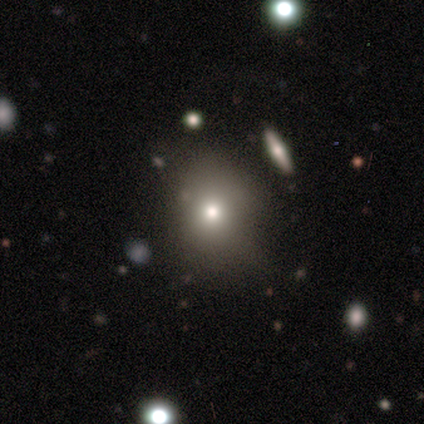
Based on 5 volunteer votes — This is likely a smooth galaxy (60%). How rounded: likely round (67%). Merging: likely none (67%).